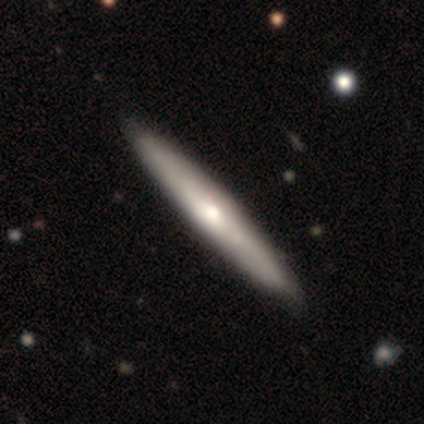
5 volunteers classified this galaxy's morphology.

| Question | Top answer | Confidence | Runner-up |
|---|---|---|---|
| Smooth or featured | featured or disk | 60% | smooth (20%) |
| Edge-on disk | yes | 100% | — |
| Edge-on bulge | rounded | 67% | none (33%) |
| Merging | none | 75% | minor disturbance (25%) |